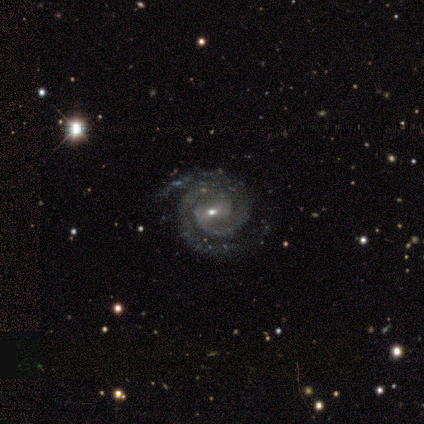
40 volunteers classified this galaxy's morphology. type=featured or disk (88%); edge-on=no (94%); bar=weak (67%); spiral arms=yes (94%); winding=tight (71%); arm count=2 (97%); bulge=small (61%); merging=none (82%).